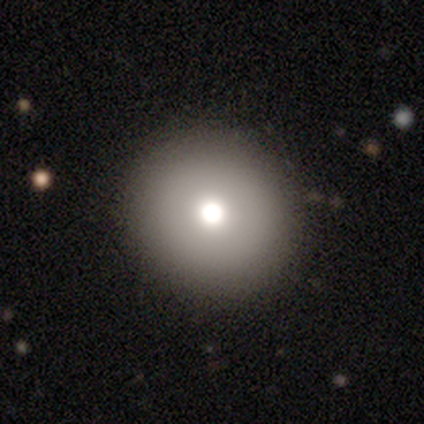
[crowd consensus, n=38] Q: Smooth or featured?
A: smooth (63%); runner-up: featured or disk (18%)
Q: How rounded?
A: round (96%); runner-up: in between (4%)
Q: Merging?
A: none (90%); runner-up: minor disturbance (6%)